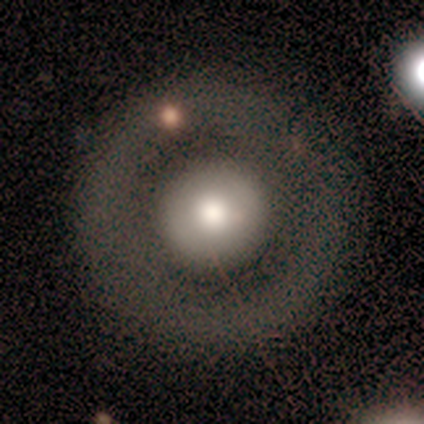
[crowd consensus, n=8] This appears to be a smooth galaxy with no disk features (88%) that is round (100%). Merging: none (100%).